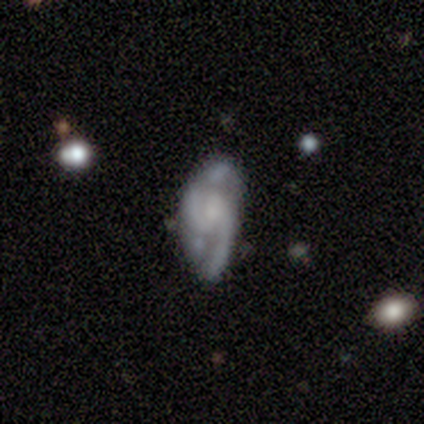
A featured or disk galaxy (80%) with a weak bar (50%, tied with no), loose (100%) spiral arms (75%) and a small central bulge (50%). Merging: major disturbance (80%).